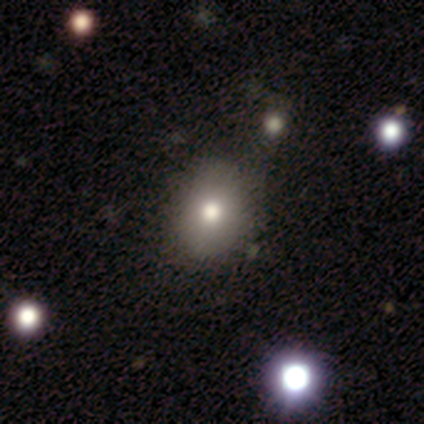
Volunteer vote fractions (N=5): A smooth galaxy with no disk features (100%) that is in between round and cigar-shaped (60%). Merging: none (100%).